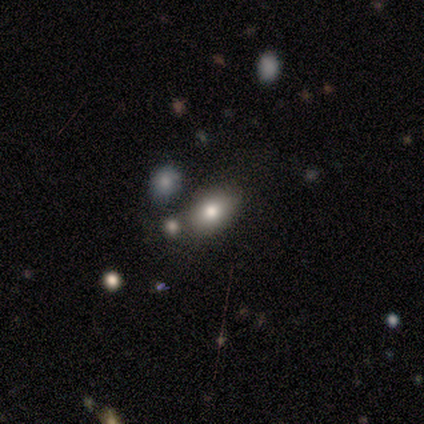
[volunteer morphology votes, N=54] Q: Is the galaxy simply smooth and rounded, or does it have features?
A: smooth — 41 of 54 (76%).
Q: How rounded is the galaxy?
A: in between — 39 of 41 (95%).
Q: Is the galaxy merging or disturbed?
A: none — 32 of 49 (65%).